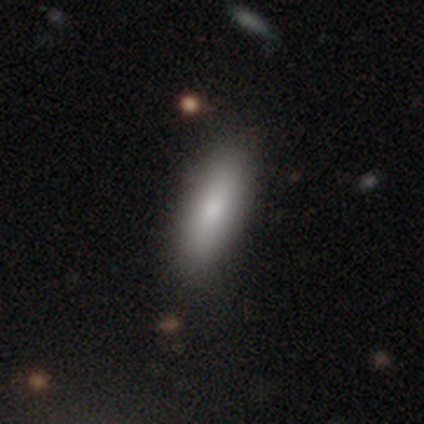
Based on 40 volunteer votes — This is likely a smooth galaxy (78%). How rounded: likely in between (65%). Merging: likely none (64%).